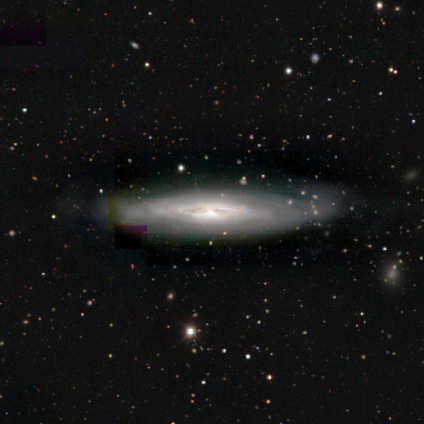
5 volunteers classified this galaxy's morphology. A featured or disk galaxy (80%) with no bar (100%), tight (67%) spiral arms (75%) and a small central bulge (75%). Merging: none (75%).